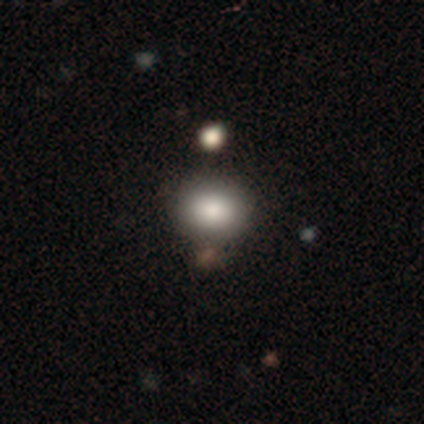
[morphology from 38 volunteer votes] This is clearly a smooth galaxy (89%). How rounded: possibly in between (59%). Merging: clearly none (83%).